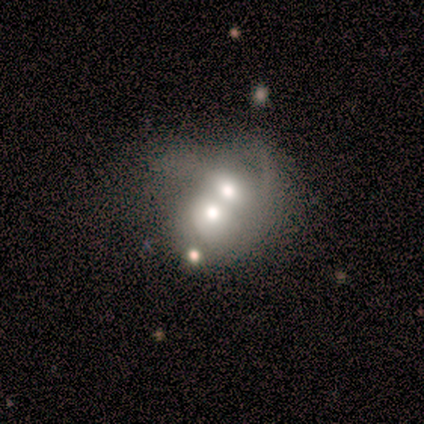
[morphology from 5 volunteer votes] This is marginally a smooth galaxy (40%, tied with star or artifact). How rounded: possibly round (50%, tied with in between). Merging: clearly merger (100%).